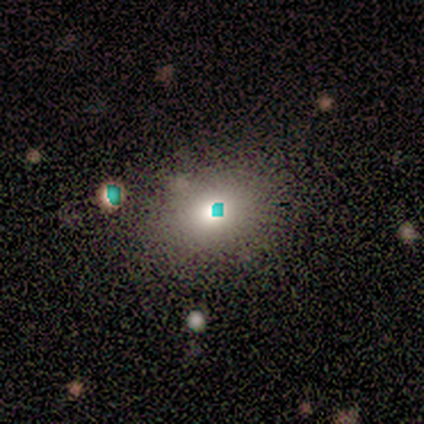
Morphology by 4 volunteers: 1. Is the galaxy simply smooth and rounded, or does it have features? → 50% smooth, 25% featured or disk, 25% star or artifact.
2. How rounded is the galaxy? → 50% round (tied), 50% in between (tied), 0% cigar-shaped.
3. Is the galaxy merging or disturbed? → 100% none, 0% minor disturbance, 0% major disturbance, 0% merger.